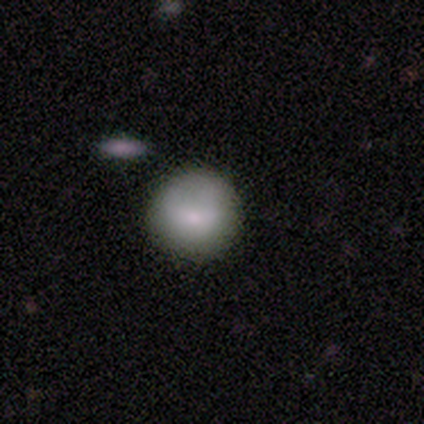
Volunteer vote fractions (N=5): smooth-or-featured: smooth: 100% | featured or disk: 0% | star or artifact: 0%
  how-rounded: round: 80% | in between: 20% | cigar-shaped: 0%
  merging: none: 60% | minor disturbance: 40% | major disturbance: 0% | merger: 0%